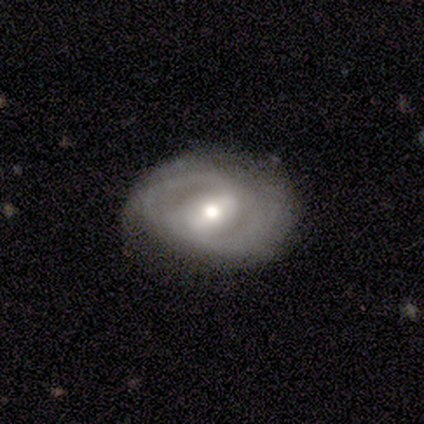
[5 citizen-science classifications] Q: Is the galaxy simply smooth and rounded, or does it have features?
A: featured or disk — 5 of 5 (100%).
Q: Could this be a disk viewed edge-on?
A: no — 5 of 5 (100%).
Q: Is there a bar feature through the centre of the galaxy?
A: weak — 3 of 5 (60%).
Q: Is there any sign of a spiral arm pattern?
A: yes — 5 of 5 (100%).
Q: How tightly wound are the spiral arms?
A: tight — 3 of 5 (60%).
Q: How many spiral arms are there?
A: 2 — 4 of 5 (80%).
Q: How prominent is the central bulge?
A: moderate — 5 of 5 (100%).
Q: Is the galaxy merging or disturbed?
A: none — 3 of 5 (60%).